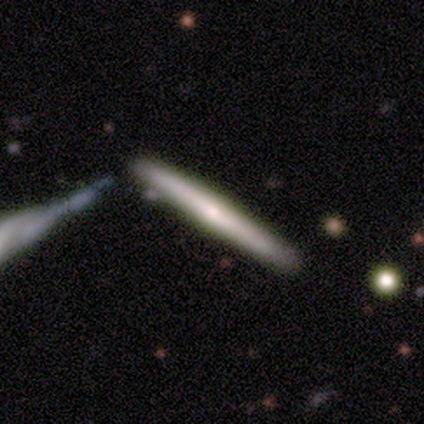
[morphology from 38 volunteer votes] This is possibly a featured or disk galaxy (58%). It is clearly viewed edge-on (100%). Edge-on bulge: possibly rounded (55%). Merging: likely none (70%).